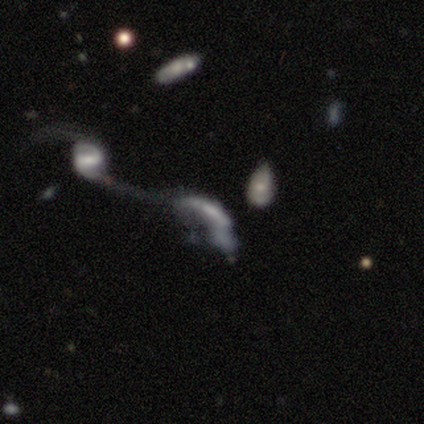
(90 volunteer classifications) A featured or disk galaxy (67%) with no bar (60%), no spiral arms (52%) and no central bulge (40%).

Vote fractions:
- Smooth or featured? featured or disk: 67% / smooth: 20% / star or artifact: 13%
- Edge-on disk? no: 87% / yes: 13%
- Bar? no: 60% / weak: 33% / strong: 8%
- Spiral arms? no: 52% / yes: 48%
- Bulge size? none: 40% / small: 35% / moderate: 19% / large: 6% / dominant: 0%
- Merging? merger: 68% / major disturbance: 26% / none: 4% / minor disturbance: 3%